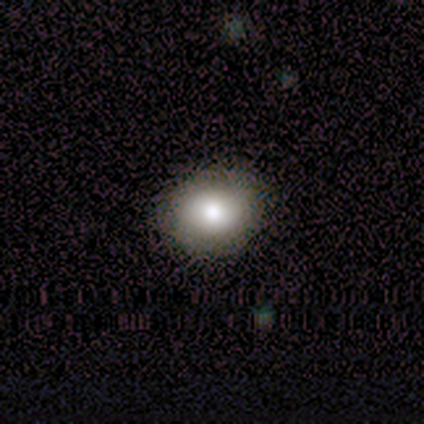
Smooth or featured? smooth (89%)
How rounded? round (75%)
Merging? none (100%)